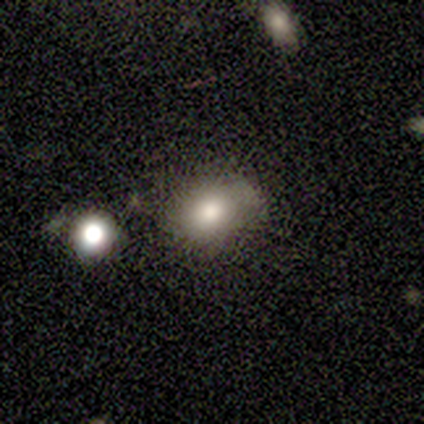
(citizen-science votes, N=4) Q: Smooth or featured?
A: smooth (75%); runner-up: star or artifact (25%)
Q: How rounded?
A: in between (67%); runner-up: round (33%)
Q: Merging?
A: none (100%)